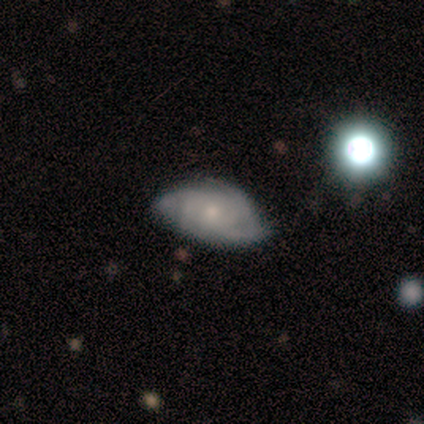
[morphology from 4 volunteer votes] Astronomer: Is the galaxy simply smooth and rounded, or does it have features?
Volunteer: smooth — 50%, tied with featured or disk at 50%.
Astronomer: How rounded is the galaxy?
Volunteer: round — 50%, tied with in between at 50%.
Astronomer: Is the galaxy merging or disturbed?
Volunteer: none — 50%, tied with minor disturbance at 50%.